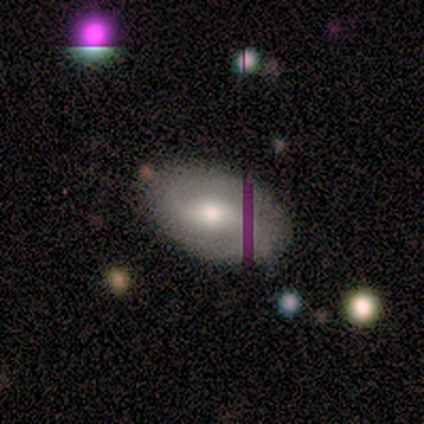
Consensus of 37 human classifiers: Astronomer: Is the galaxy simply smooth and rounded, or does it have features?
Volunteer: featured or disk — 59%.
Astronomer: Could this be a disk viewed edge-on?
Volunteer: no — 95%.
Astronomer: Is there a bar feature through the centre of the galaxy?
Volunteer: weak — 48% (runner-up: no, 43%).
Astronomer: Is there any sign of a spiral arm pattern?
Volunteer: yes — 71%.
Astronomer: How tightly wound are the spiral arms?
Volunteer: medium — 40% (runner-up: loose, 33%).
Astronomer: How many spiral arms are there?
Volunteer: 2 — 87%.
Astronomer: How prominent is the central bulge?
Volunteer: moderate — 62%.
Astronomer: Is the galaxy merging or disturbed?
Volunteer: none — 90%.